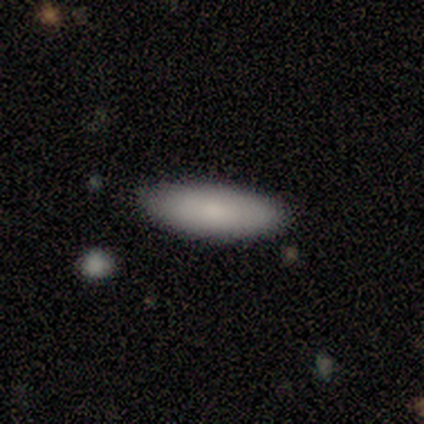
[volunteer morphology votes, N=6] smooth_or_featured: smooth (p=0.67) [alt: featured or disk p=0.33]
how_rounded: in between (p=0.50) [tied with: cigar-shaped p=0.50]
merging: none (p=0.83) [alt: minor disturbance p=0.17]